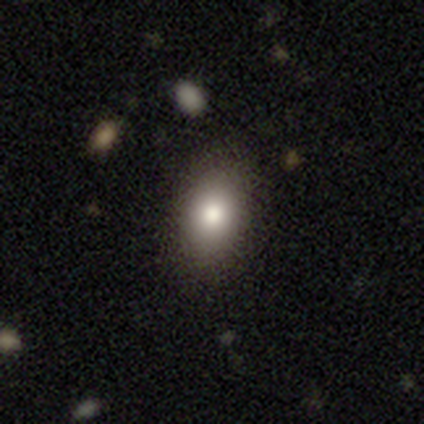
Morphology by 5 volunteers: Smooth or featured? 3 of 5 (60%) said smooth. How rounded? 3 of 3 (100%) said in between. Merging? 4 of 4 (100%) said none.